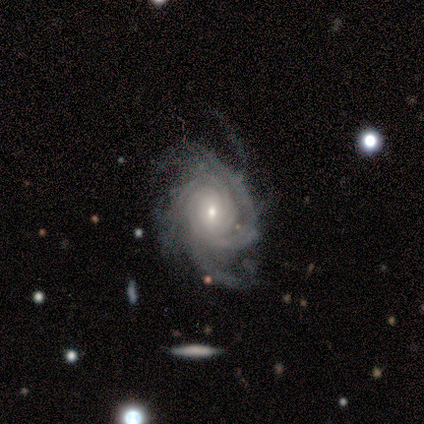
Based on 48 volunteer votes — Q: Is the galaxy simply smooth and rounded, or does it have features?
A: featured or disk — 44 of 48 (92%).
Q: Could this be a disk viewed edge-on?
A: no — 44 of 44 (100%).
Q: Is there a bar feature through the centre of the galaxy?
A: no — 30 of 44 (68%).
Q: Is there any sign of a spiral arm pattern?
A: yes — 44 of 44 (100%).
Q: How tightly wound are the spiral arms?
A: tight — 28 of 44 (64%).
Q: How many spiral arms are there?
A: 3 — 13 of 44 (30%).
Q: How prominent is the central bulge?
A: small — 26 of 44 (59%).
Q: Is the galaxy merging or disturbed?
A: none — 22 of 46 (48%).